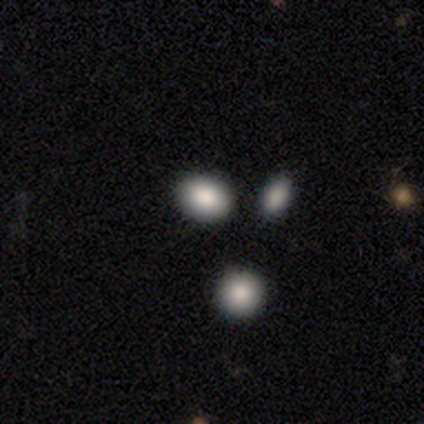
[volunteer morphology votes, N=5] Q: Smooth or featured?
A: smooth (80%); runner-up: featured or disk (20%)
Q: How rounded?
A: round (75%); runner-up: cigar-shaped (25%)
Q: Merging?
A: none (80%); runner-up: merger (20%)